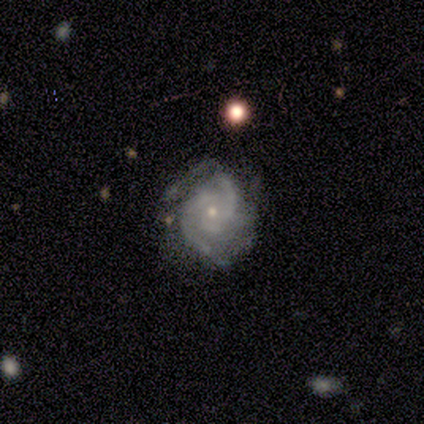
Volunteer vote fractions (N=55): smooth_or_featured: featured or disk (p=0.87) [alt: smooth p=0.07]
disk_edge_on: no (p=0.98) [alt: yes p=0.02]
bar: no (p=0.79) [alt: weak p=0.19]
has_spiral_arms: yes (p=0.96) [alt: no p=0.04]
spiral_winding: tight (p=0.56) [alt: medium p=0.42]
spiral_arm_count: 2 (p=0.58) [alt: 3 p=0.22]
bulge_size: small (p=0.72) [alt: moderate p=0.26]
merging: none (p=0.48) [alt: minor disturbance p=0.31]